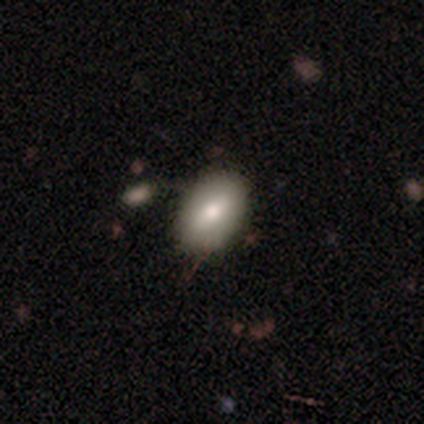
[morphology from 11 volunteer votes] A featured or disk galaxy (55%) with a weak bar (40%, tied with no), no spiral arms (100%) and a moderate central bulge (60%). Merging: none (90%).